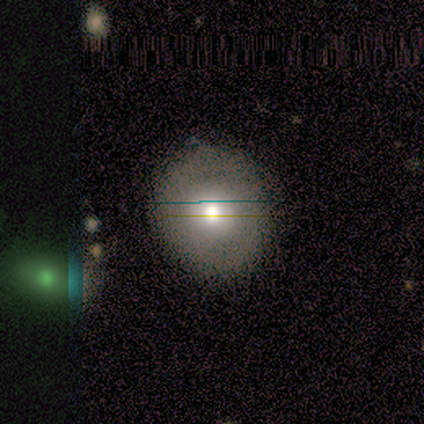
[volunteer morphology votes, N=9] This appears to be a smooth galaxy with no disk features (44%, tied with featured or disk) that is round (75%). Merging: none (88%).